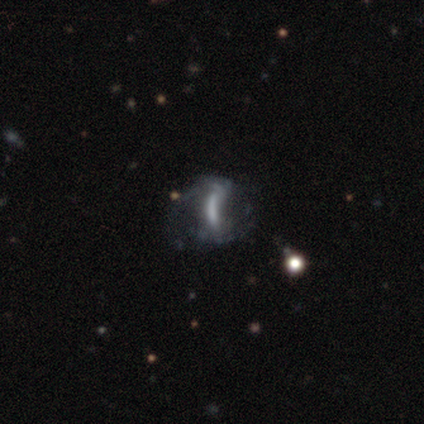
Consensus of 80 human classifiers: A featured or disk galaxy (68%) with a strong bar (49%), no spiral arms (53%) and no central bulge (63%).

Vote fractions:
- Smooth or featured? featured or disk: 68% / smooth: 21% / star or artifact: 11%
- Edge-on disk? no: 94% / yes: 6%
- Bar? strong: 49% / no: 31% / weak: 20%
- Spiral arms? no: 53% / yes: 47%
- Bulge size? none: 63% / moderate: 22% / large: 10% / small: 6% / dominant: 0%
- Merging? none: 23% / major disturbance: 21% / merger: 7% / minor disturbance: 6%